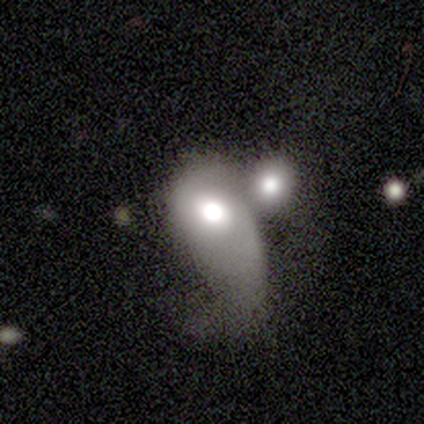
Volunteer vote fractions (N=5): Smooth or featured? smooth (60%)
How rounded? in between (100%)
Merging? merger (60%)